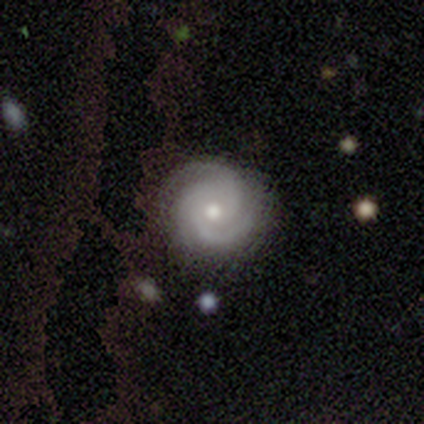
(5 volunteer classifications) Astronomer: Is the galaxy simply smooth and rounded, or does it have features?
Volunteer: featured or disk — 100%.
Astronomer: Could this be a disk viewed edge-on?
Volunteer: no — 100%.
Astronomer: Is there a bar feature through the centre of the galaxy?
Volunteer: no — 80%.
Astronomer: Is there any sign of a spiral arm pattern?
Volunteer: yes — 100%.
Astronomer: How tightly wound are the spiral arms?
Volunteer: tight — 60% (runner-up: medium, 40%).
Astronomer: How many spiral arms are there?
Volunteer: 3 — 60%.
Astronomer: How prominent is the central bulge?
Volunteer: moderate — 40%, tied with small at 40%.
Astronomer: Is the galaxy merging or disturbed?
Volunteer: none — 100%.